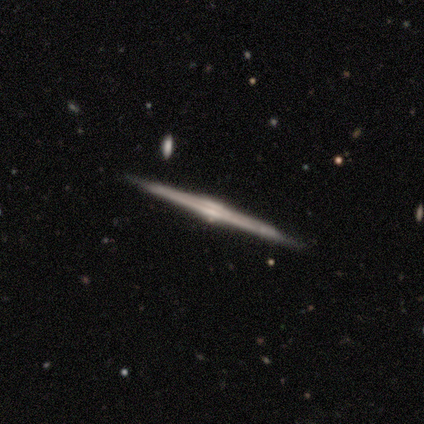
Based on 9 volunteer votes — Smooth or featured: featured or disk — 89% (smooth — 11%)
Edge-on disk: yes — 100%
Edge-on bulge: rounded — 75% (boxy — 25%)
Merging: none — 100%